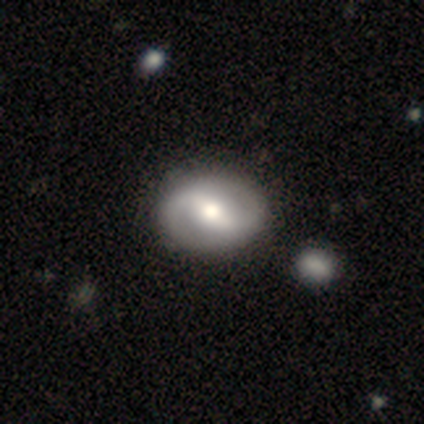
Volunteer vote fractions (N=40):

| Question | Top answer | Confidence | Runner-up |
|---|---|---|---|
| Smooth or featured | featured or disk | 80% | smooth (18%) |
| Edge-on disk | no | 97% | yes (3%) |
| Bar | strong | 52% | weak (42%) |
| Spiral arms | yes | 84% | no (16%) |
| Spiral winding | medium | 50% | loose (38%) |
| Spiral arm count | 2 | 92% | can't tell (8%) |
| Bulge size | moderate | 61% | large (19%) |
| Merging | none | 72% | merger (8%) |